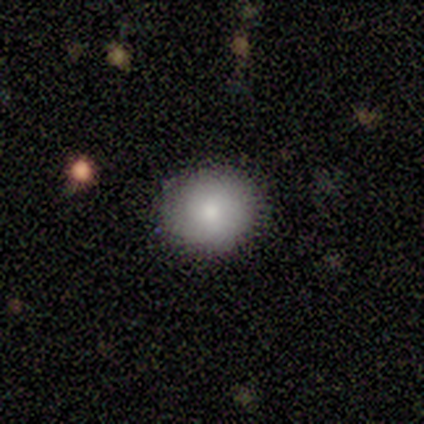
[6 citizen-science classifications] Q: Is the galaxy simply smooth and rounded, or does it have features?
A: smooth — 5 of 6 (83%).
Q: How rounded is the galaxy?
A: round — 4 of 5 (80%).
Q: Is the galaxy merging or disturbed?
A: none — 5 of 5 (100%).